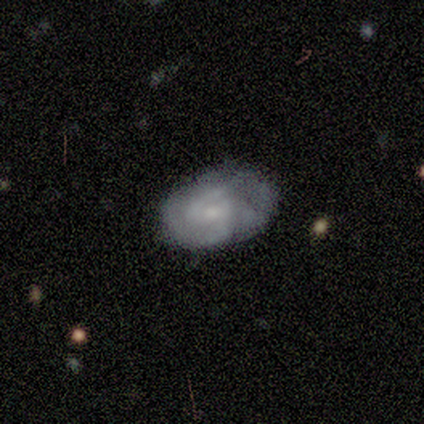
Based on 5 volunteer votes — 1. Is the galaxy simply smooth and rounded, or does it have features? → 60% featured or disk, 40% smooth, 0% star or artifact.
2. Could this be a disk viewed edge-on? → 100% no, 0% yes.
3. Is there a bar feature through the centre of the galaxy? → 100% no, 0% strong, 0% weak.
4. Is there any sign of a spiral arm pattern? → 67% no, 33% yes.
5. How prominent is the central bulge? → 67% small, 33% none, 0% dominant, 0% large, 0% moderate.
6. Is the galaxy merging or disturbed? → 40% none (tied), 40% minor disturbance (tied), 20% major disturbance, 0% merger.